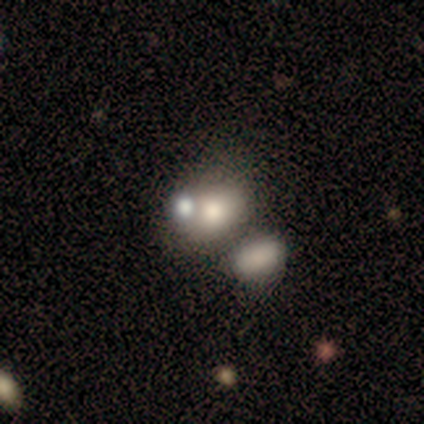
smooth_or_featured: smooth (p=0.80) [alt: star or artifact p=0.20]
how_rounded: round (p=0.75) [alt: in between p=0.25]
merging: none (p=0.50) [tied with: merger p=0.50]